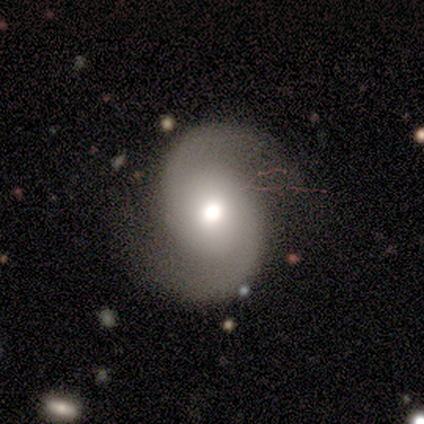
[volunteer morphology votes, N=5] smooth_or_featured: featured or disk (p=1.00)
disk_edge_on: no (p=1.00)
bar: weak (p=0.60) [alt: no p=0.40]
has_spiral_arms: yes (p=1.00)
spiral_winding: tight (p=0.40) [tied with: medium p=0.40]
spiral_arm_count: 2 (p=1.00)
bulge_size: moderate (p=0.80) [alt: large p=0.20]
merging: none (p=1.00)